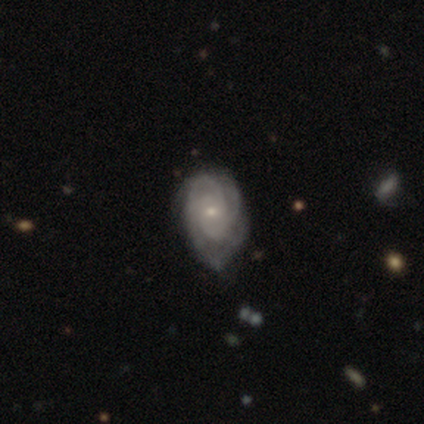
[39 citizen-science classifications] Smooth or featured? featured or disk (87%)
Edge-on disk? no (94%)
Bar? no (84%)
Spiral arms? yes (97%)
Spiral winding? tight (65%)
Spiral arm count? 4 (32%)
Bulge size? small (84%)
Merging? none (50%)